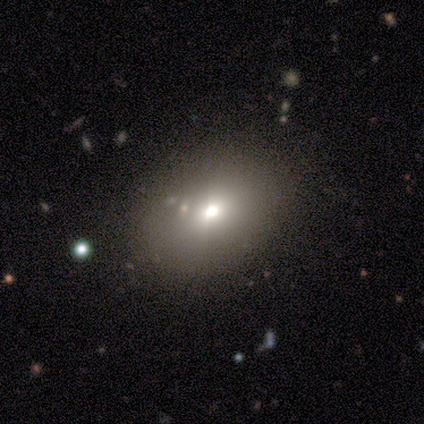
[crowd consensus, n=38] smooth-or-featured: smooth: 71% | featured or disk: 16% | star or artifact: 13%
  how-rounded: in between: 81% | round: 19% | cigar-shaped: 0%
  merging: none: 70% | minor disturbance: 18% | merger: 12% | major disturbance: 0%